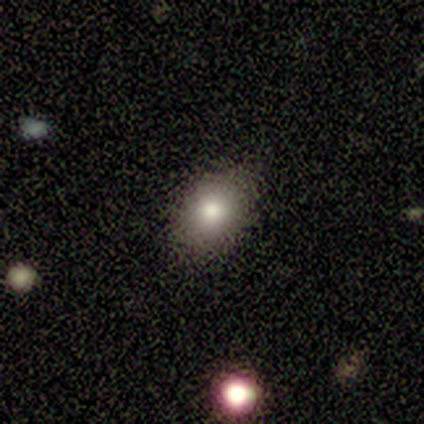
Q: Smooth or featured?
A: smooth (80%); runner-up: star or artifact (20%)
Q: How rounded?
A: round (50%); tied with: in between (50%)
Q: Merging?
A: none (100%)